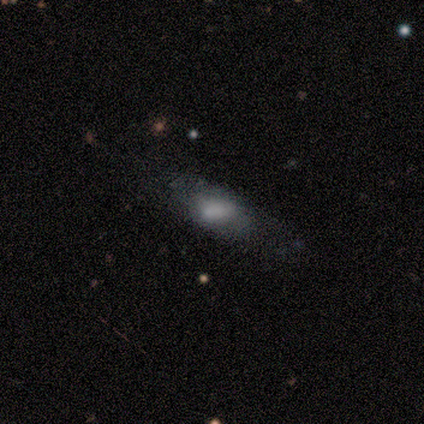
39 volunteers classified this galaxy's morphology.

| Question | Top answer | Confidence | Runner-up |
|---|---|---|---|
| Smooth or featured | smooth | 59% | featured or disk (33%) |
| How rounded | in between | 78% | cigar-shaped (13%) |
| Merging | none | 25% | tied: minor disturbance (25%) |